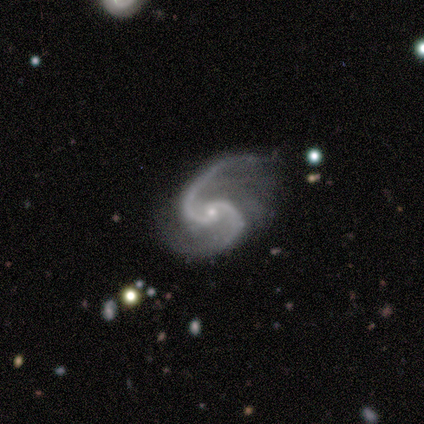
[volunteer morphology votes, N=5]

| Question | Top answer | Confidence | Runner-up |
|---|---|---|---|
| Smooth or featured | featured or disk | 100% | — |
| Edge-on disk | no | 100% | — |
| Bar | no | 100% | — |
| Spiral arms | yes | 100% | — |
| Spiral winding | medium | 80% | loose (20%) |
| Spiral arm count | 2 | 100% | — |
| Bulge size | small | 80% | moderate (20%) |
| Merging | none | 40% | tied: major disturbance (40%) |